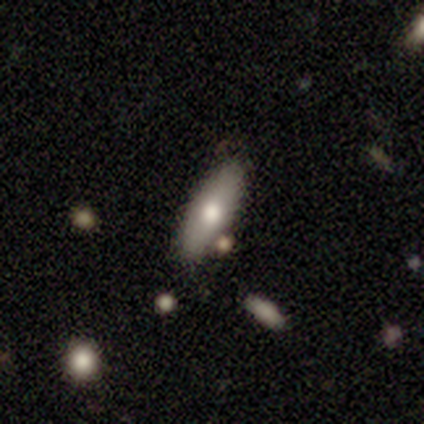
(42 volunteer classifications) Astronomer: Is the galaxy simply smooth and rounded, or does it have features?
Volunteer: smooth — 62%.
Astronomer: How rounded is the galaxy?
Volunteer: in between — 69%.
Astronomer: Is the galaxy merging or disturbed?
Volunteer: none — 87%.